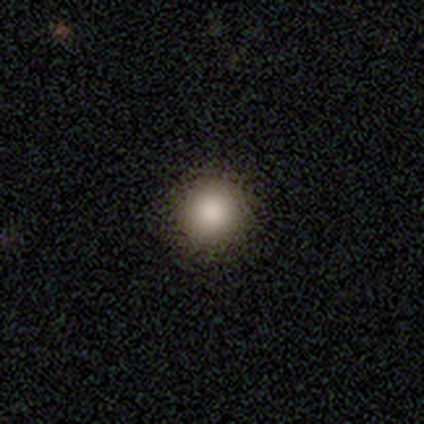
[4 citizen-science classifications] This is clearly a smooth galaxy (100%). How rounded: clearly round (100%). Merging: clearly none (100%).